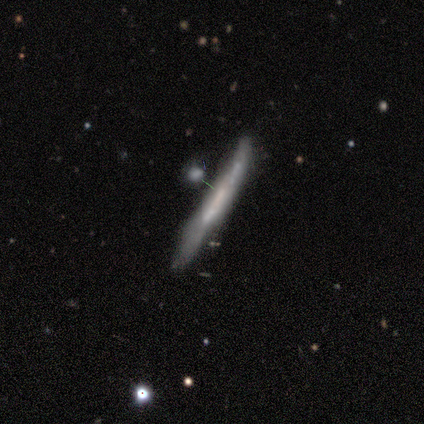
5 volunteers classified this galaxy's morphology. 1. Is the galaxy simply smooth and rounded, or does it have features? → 40% smooth (tied), 40% featured or disk (tied), 20% star or artifact.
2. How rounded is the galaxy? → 100% cigar-shaped, 0% round, 0% in between.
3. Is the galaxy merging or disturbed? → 50% none (tied), 50% minor disturbance (tied), 0% major disturbance, 0% merger.